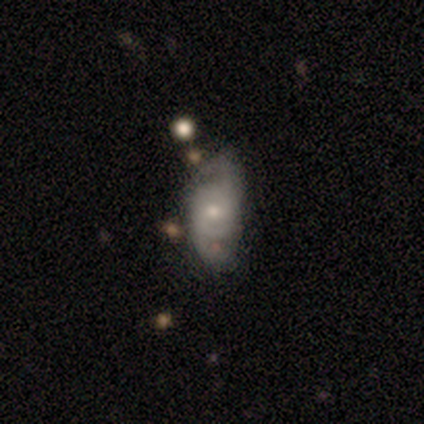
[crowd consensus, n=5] Overall: featured or disk (80%). Edge-on disk: no (75%). Bar: no (67%; weak 33%). Spiral arms: yes (100%). Spiral arm count: 2 (67%; can't tell 33%). Spiral winding: medium (67%; loose 33%). Bulge size: small (67%; moderate 33%). Merging: none (40%, tied with major disturbance).